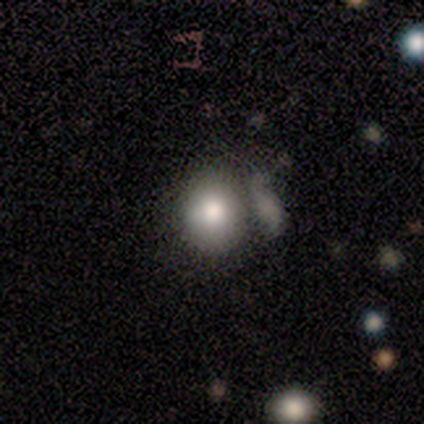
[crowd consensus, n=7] smooth_or_featured: smooth (p=1.00)
how_rounded: round (p=0.57) [alt: in between p=0.43]
merging: none (p=0.43) [tied with: major disturbance p=0.43]